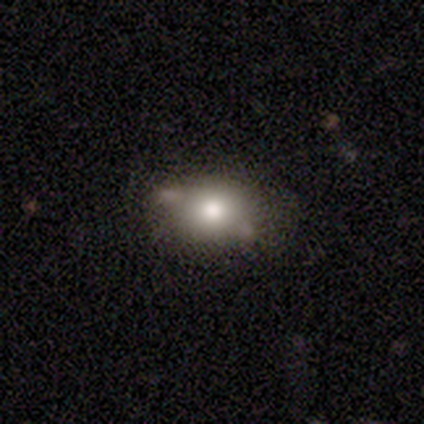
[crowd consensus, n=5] smooth-or-featured: smooth: 80% | featured or disk: 20% | star or artifact: 0%
  how-rounded: in between: 75% | round: 25% | cigar-shaped: 0%
  merging: minor disturbance: 60% | merger: 40% | none: 0% | major disturbance: 0%